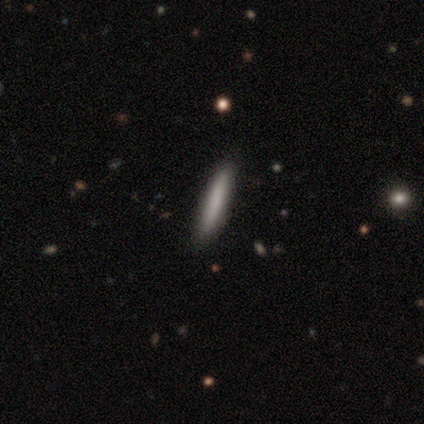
Volunteers were most divided on "merging" (2-way tie): none: 50%, minor disturbance: 50%, major disturbance: 0%, merger: 0%. More confident: how rounded — cigar-shaped (100%); smooth or featured — smooth (67%).